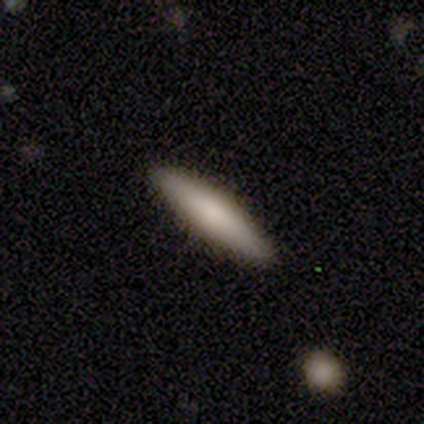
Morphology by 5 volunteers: Volunteers were most divided on "how rounded": cigar-shaped: 80%, in between: 20%, round: 0%. More confident: smooth or featured — smooth (100%); merging — none (100%).